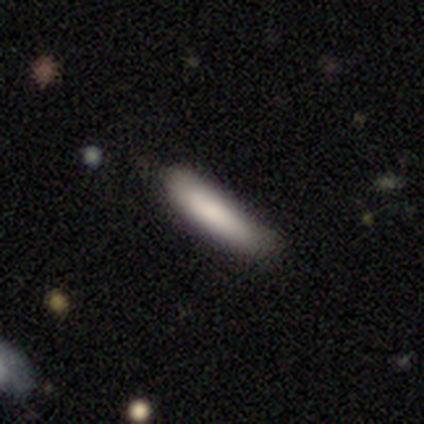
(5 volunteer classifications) This appears to be a smooth galaxy with no disk features (100%) that is cigar-shaped (100%). Merging: none (80%).